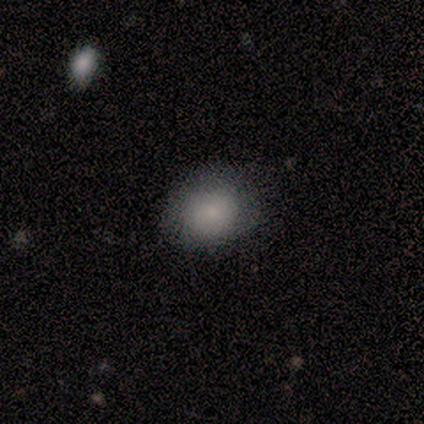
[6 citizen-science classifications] Smooth or featured?
  - featured or disk: 67% *
  - smooth: 33%
  - star or artifact: 0%
Edge-on disk?
  - no: 100% *
  - yes: 0%
Bar?
  - no: 75% *
  - weak: 25%
  - strong: 0%
Spiral arms?
  - no: 75% *
  - yes: 25%
Bulge size?
  - moderate: 75% *
  - small: 25%
  - dominant: 0%
  - large: 0%
  - none: 0%
Merging?
  - minor disturbance: 67% *
  - none: 17%
  - merger: 17%
  - major disturbance: 0%